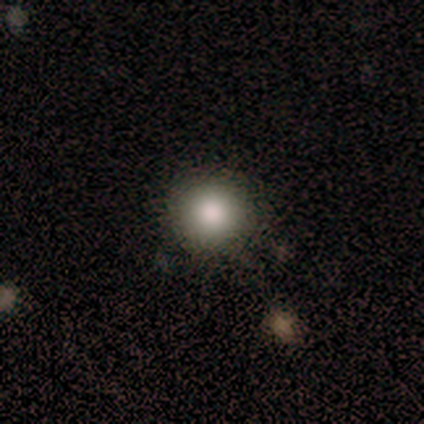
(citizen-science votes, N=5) smooth_or_featured: smooth (p=0.80) [alt: featured or disk p=0.20]
how_rounded: round (p=1.00)
merging: none (p=1.00)